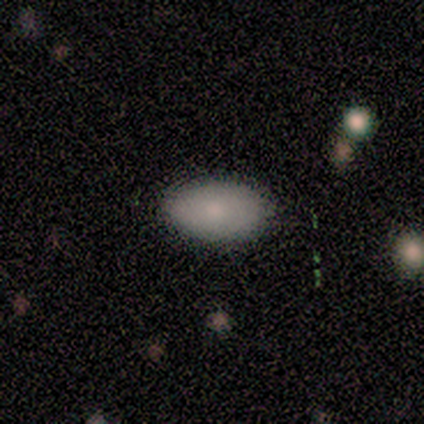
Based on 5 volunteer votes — A smooth galaxy with no disk features (100%) that is in between round and cigar-shaped (80%). Merging: none (80%).